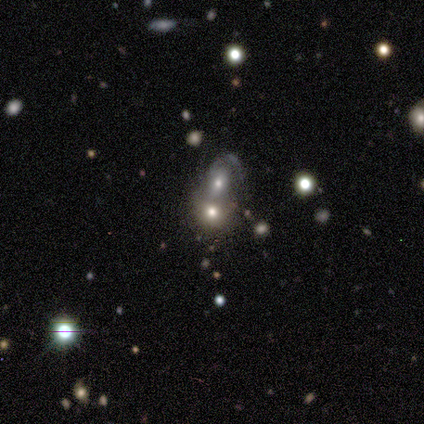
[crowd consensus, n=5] A smooth galaxy with no disk features (60%) that is in between round and cigar-shaped (67%).

Vote fractions:
- Smooth or featured? smooth: 60% / featured or disk: 20% / star or artifact: 20%
- How rounded? in between: 67% / round: 33% / cigar-shaped: 0%
- Merging? merger: 100% / none: 0% / minor disturbance: 0% / major disturbance: 0%